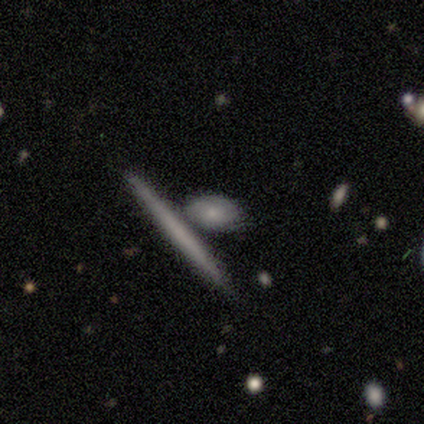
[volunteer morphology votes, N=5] Smooth or featured? smooth (60%)
How rounded? cigar-shaped (67%)
Merging? none (40%, tied with major disturbance)